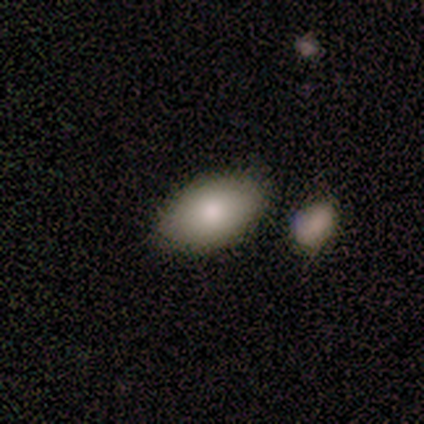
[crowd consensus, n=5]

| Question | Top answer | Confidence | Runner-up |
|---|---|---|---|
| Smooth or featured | smooth | 60% | featured or disk (40%) |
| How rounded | in between | 100% | — |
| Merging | none | 80% | major disturbance (20%) |